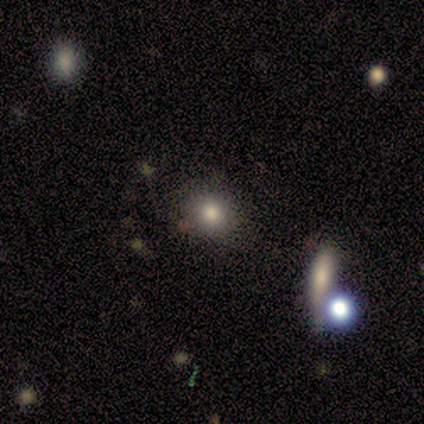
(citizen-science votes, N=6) Volunteers were most divided on "how rounded": round: 80%, in between: 20%, cigar-shaped: 0%. More confident: merging — none (100%); smooth or featured — smooth (83%).